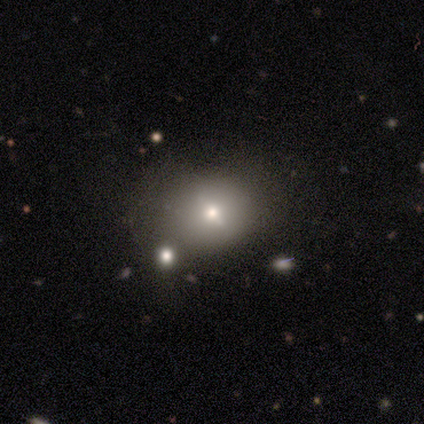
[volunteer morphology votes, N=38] Smooth or featured? smooth (55%)
How rounded? round (76%)
Merging? none (66%)